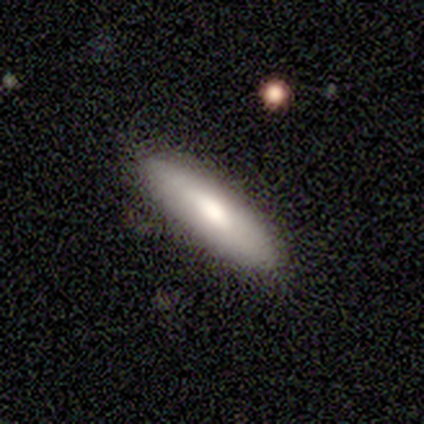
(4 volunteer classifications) Overall: smooth (50%, tied with featured or disk). How rounded: in between (50%, tied with cigar-shaped). Merging: none (100%).